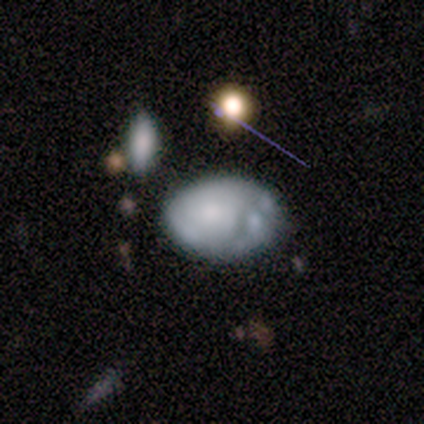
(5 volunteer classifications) Q: Smooth or featured?
A: featured or disk (60%); runner-up: smooth (40%)
Q: Edge-on disk?
A: no (100%)
Q: Bar?
A: no (100%)
Q: Spiral arms?
A: no (100%)
Q: Bulge size?
A: none (67%); runner-up: small (33%)
Q: Merging?
A: none (40%); tied with: minor disturbance (40%)